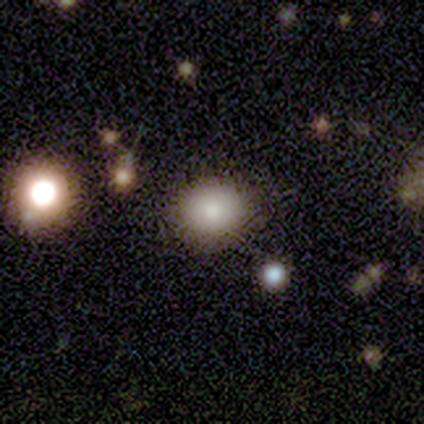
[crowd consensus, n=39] smooth 69%, star or artifact 23%, featured or disk 8%. Down the decision tree: how rounded — round (89%); merging — none (87%).